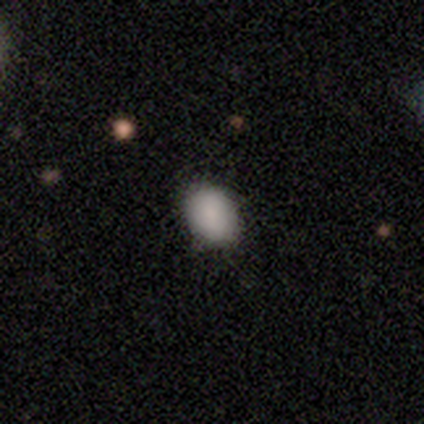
Smooth or featured: smooth — 75% (star or artifact — 25%)
How rounded: round — 67% (in between — 33%)
Merging: none — 100%